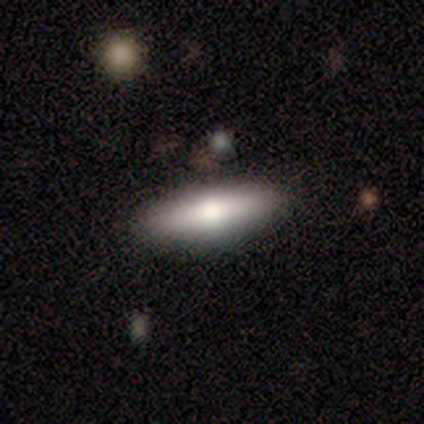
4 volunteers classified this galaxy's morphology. A smooth galaxy with no disk features (50%) that is cigar-shaped (100%).

Vote fractions:
- Smooth or featured? smooth: 50% / featured or disk: 25% / star or artifact: 25%
- How rounded? cigar-shaped: 100% / round: 0% / in between: 0%
- Merging? none: 100% / minor disturbance: 0% / major disturbance: 0% / merger: 0%